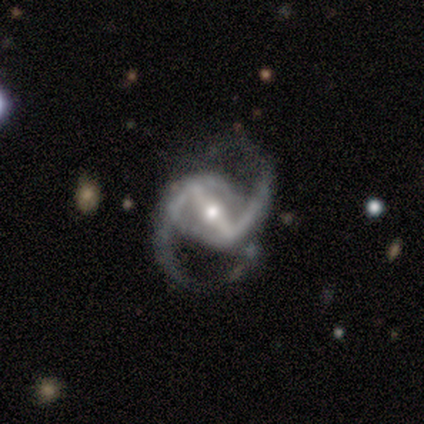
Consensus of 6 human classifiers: Overall: featured or disk (83%). Edge-on disk: no (100%). Bar: strong (100%). Spiral arms: yes (100%). Spiral arm count: 2 (80%). Spiral winding: medium (80%). Bulge size: moderate (60%; small 40%). Merging: none (60%; major disturbance 20%).